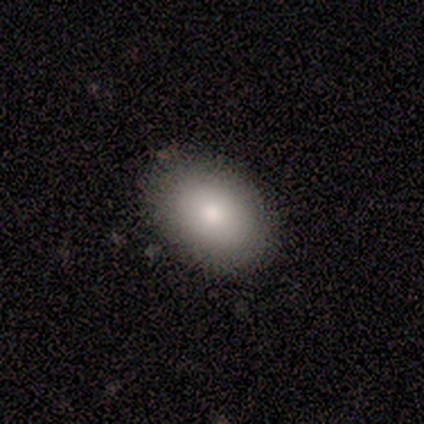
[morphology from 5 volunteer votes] smooth 100%, featured or disk 0%, star or artifact 0%. Down the decision tree: how rounded — in between (100%); merging — none (100%).